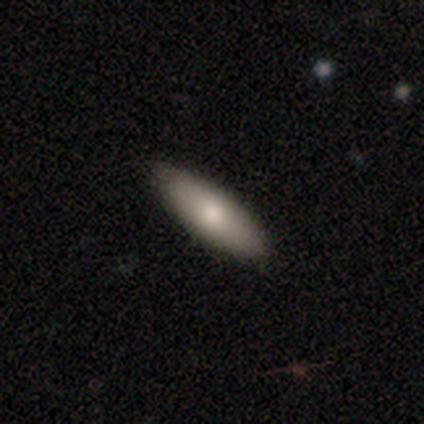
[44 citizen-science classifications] Morphology: type=smooth (68%); roundness=in between (57%); merging=none (88%).